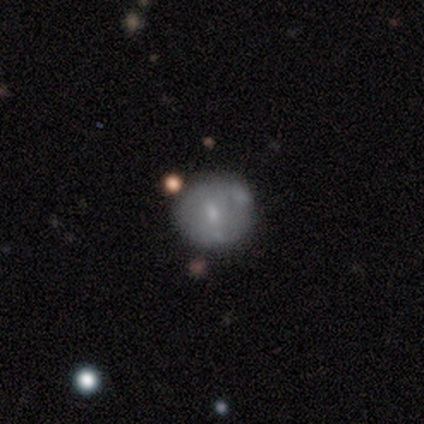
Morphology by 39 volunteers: Volunteers were most divided on "smooth or featured": smooth: 56%, featured or disk: 33%, star or artifact: 10%. More confident: how rounded — round (95%); merging — none (66%).